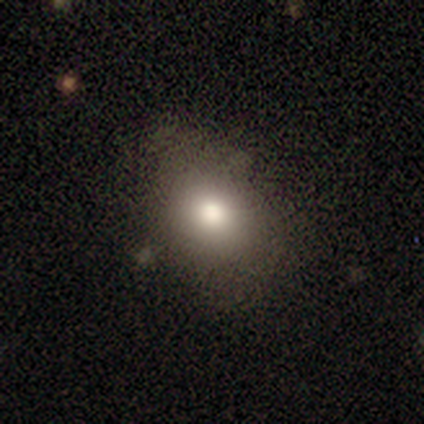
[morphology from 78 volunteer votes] type=smooth (83%); roundness=in between (65%); merging=none (36%).